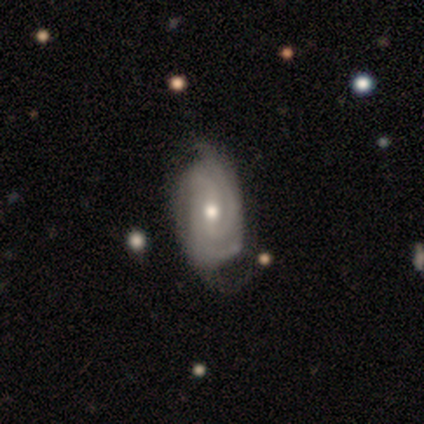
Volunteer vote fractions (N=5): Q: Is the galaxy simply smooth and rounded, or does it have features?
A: featured or disk — 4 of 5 (80%).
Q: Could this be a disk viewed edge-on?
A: no — 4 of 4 (100%).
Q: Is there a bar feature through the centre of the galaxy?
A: weak — 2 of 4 (50%, tied with no).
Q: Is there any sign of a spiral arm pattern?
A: yes — 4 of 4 (100%).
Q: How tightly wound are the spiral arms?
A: tight — 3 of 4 (75%).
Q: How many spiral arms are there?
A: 3 — 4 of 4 (100%).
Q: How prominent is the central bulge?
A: small — 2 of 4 (50%).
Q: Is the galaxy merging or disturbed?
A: none — 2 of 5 (40%, tied with minor disturbance).